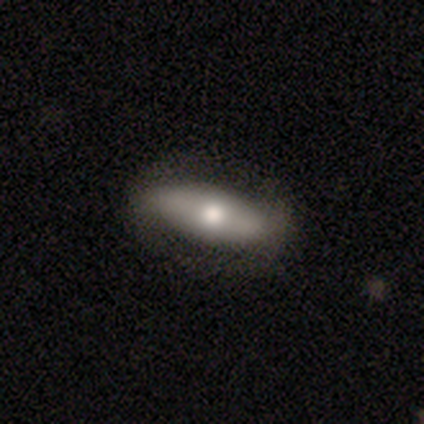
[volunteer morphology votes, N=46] A smooth galaxy with no disk features (54%) that is in between round and cigar-shaped (76%). Merging: none (73%).